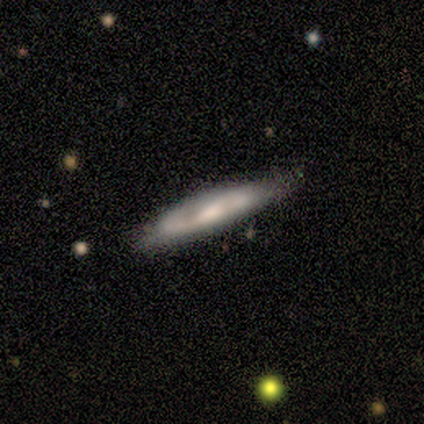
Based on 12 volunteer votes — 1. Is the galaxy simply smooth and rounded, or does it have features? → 58% smooth, 33% featured or disk, 8% star or artifact.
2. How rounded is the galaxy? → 86% cigar-shaped, 14% in between, 0% round.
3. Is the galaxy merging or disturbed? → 82% none, 18% minor disturbance, 0% major disturbance, 0% merger.